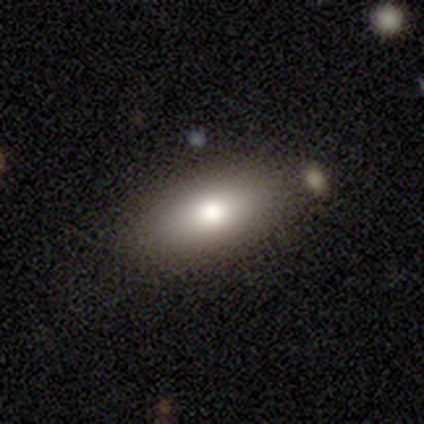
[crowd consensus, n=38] Morphology: type=smooth (68%); roundness=in between (85%); merging=none (68%).